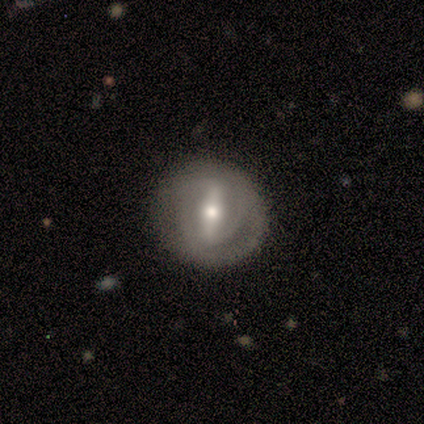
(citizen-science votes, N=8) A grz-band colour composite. It shows a featured or disk galaxy (75%) with a strong bar (100%), 2 (50%) tight (100%) spiral arms (67%) and a small central bulge (67%). Merging: none (88%).